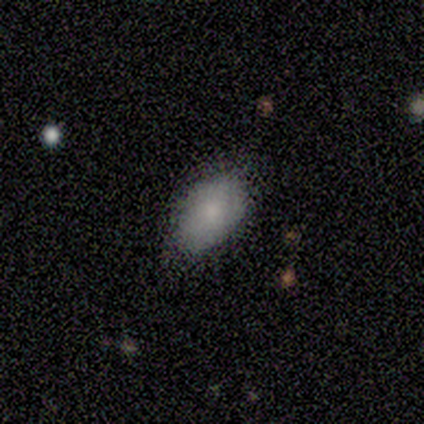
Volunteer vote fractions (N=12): Q: Smooth or featured?
A: smooth (75%); runner-up: featured or disk (17%)
Q: How rounded?
A: in between (100%)
Q: Merging?
A: none (73%); runner-up: minor disturbance (27%)